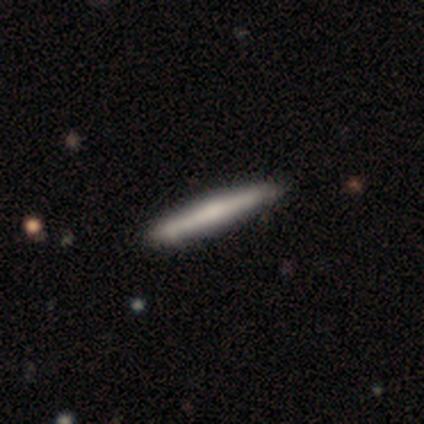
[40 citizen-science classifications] A smooth galaxy with no disk features (60%) that is cigar-shaped (96%).

Vote fractions:
- Smooth or featured? smooth: 60% / featured or disk: 40% / star or artifact: 0%
- How rounded? cigar-shaped: 96% / in between: 4% / round: 0%
- Merging? none: 65% / merger: 2% / minor disturbance: 0% / major disturbance: 0%